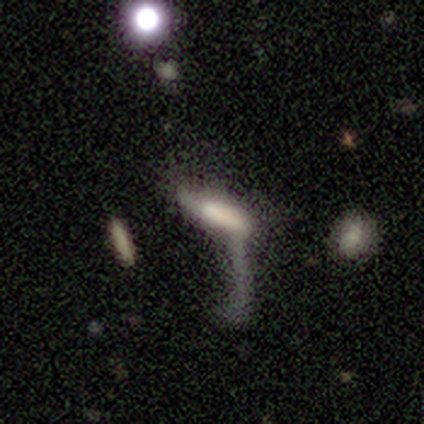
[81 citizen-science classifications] Morphology: type=smooth (53%); roundness=cigar-shaped (58%); merging=major disturbance (49%).